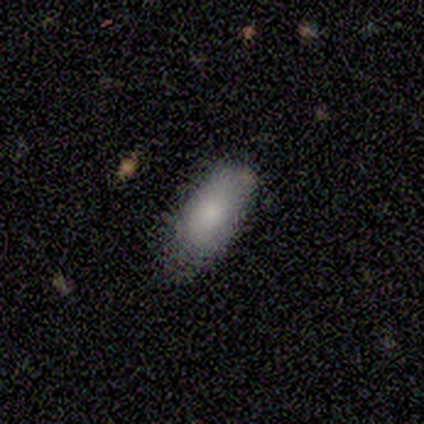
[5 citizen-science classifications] Smooth or featured?
  - smooth: 80% *
  - featured or disk: 20%
  - star or artifact: 0%
How rounded?
  - in between: 100% *
  - round: 0%
  - cigar-shaped: 0%
Merging?
  - none: 80% *
  - minor disturbance: 20%
  - major disturbance: 0%
  - merger: 0%